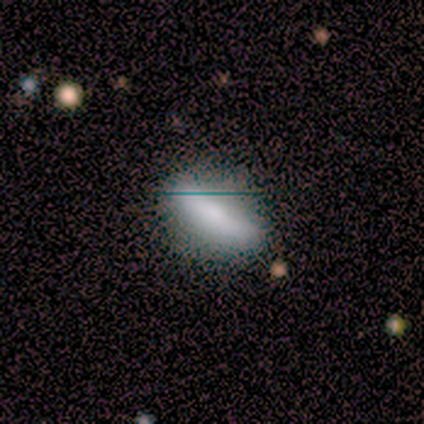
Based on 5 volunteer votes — Smooth or featured? smooth (100%)
How rounded? in between (60%)
Merging? none (60%)